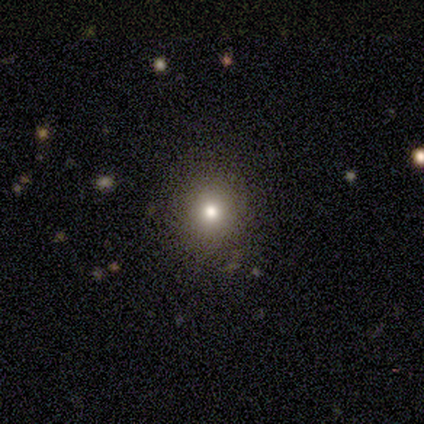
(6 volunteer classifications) smooth 50% (tied), star or artifact 50% (tied), featured or disk 0%. Down the decision tree: how rounded — round (67%); merging — none (100%).